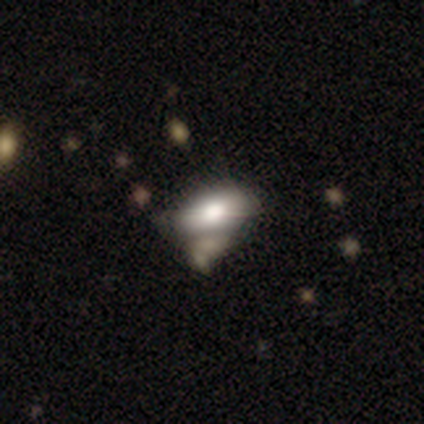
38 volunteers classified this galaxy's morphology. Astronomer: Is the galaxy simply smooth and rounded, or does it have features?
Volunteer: smooth — 53% (runner-up: featured or disk, 42%).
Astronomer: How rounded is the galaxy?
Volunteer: in between — 95%.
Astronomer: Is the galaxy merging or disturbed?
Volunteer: none — 22%, tied with merger at 22%.